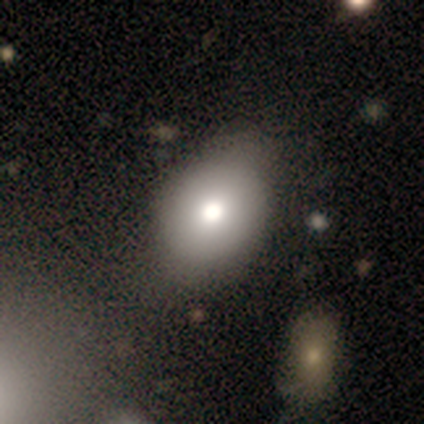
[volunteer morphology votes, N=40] Smooth or featured? smooth (82%)
How rounded? in between (55%)
Merging? none (53%)